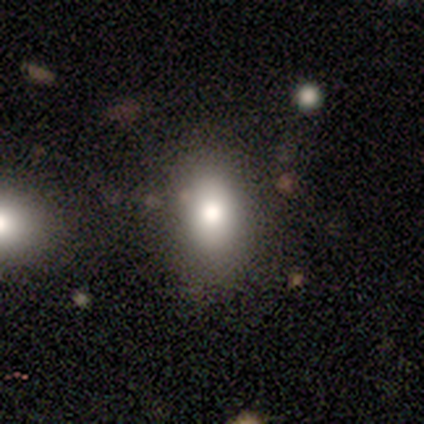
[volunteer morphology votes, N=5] A smooth galaxy with no disk features (100%) that is in between round and cigar-shaped (80%).

Vote fractions:
- Smooth or featured? smooth: 100% / featured or disk: 0% / star or artifact: 0%
- How rounded? in between: 80% / cigar-shaped: 20% / round: 0%
- Merging? none: 100% / minor disturbance: 0% / major disturbance: 0% / merger: 0%